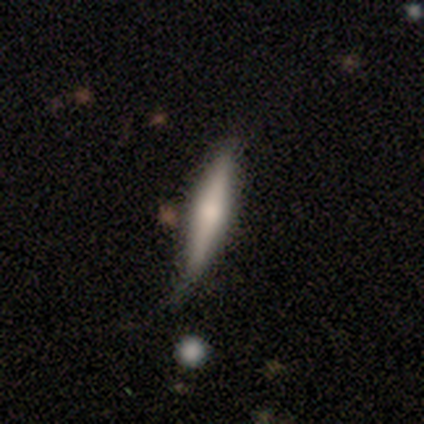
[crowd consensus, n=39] This appears to be a featured or disk galaxy (49%) viewed edge-on (100%) with a rounded central bulge (84%). Merging: none (62%).